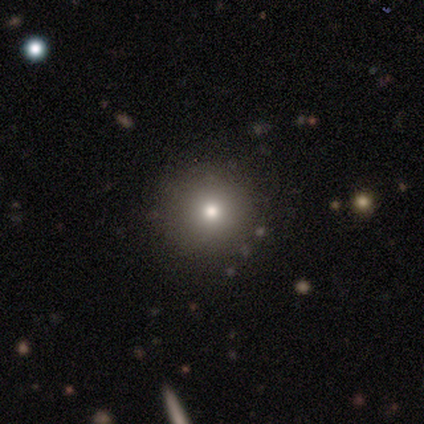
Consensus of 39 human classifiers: Smooth or featured?
  - smooth: 87% *
  - star or artifact: 10%
  - featured or disk: 3%
How rounded?
  - round: 97% *
  - in between: 3%
  - cigar-shaped: 0%
Merging?
  - none: 66% *
  - merger: 6%
  - major disturbance: 3%
  - minor disturbance: 0%